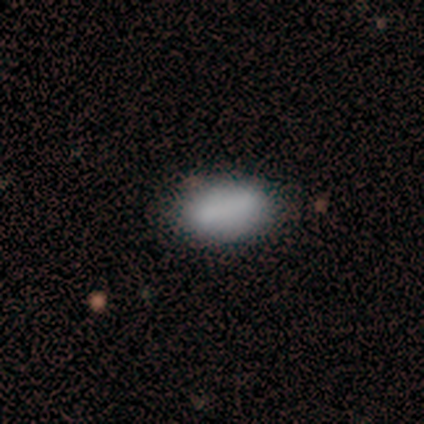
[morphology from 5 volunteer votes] A smooth galaxy with no disk features (100%) that is in between round and cigar-shaped (80%).

Vote fractions:
- Smooth or featured? smooth: 100% / featured or disk: 0% / star or artifact: 0%
- How rounded? in between: 80% / round: 20% / cigar-shaped: 0%
- Merging? none: 80% / minor disturbance: 20% / major disturbance: 0% / merger: 0%